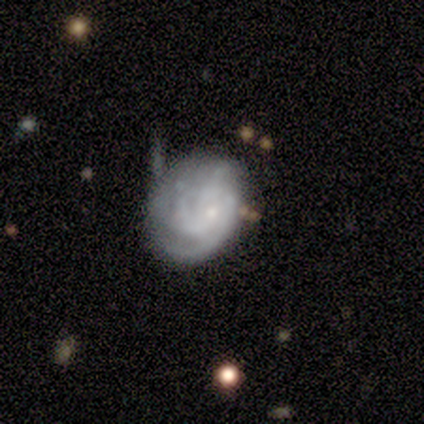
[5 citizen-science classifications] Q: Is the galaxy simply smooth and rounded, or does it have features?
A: featured or disk — 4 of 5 (80%).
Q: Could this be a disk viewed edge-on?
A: no — 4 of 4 (100%).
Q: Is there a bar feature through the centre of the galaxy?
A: no — 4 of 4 (100%).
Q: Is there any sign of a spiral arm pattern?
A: yes — 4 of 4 (100%).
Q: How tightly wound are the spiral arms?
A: medium — 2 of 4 (50%).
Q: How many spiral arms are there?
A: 2 — 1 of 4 (25%, tied with 3, 4 and can't tell).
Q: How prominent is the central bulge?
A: small — 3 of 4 (75%).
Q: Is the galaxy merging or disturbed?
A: none — 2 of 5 (40%).